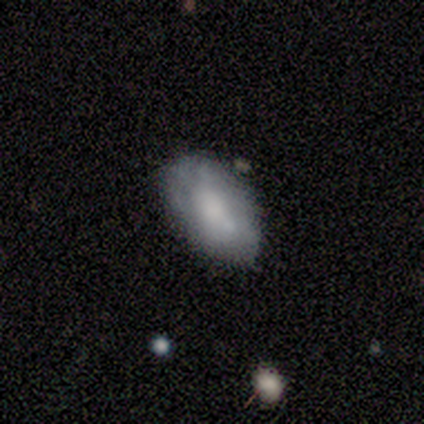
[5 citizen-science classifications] Volunteers were most divided on "smooth or featured": smooth: 60%, featured or disk: 40%, star or artifact: 0%. More confident: how rounded — in between (100%); merging — none (80%).